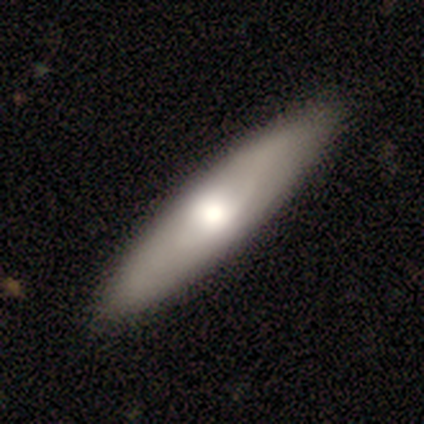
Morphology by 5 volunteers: Volunteers were most divided on "edge-on bulge" (2-way tie): none: 50%, rounded: 50%, boxy: 0%. More confident: merging — none (100%); edge-on disk — yes (67%); smooth or featured — featured or disk (60%).